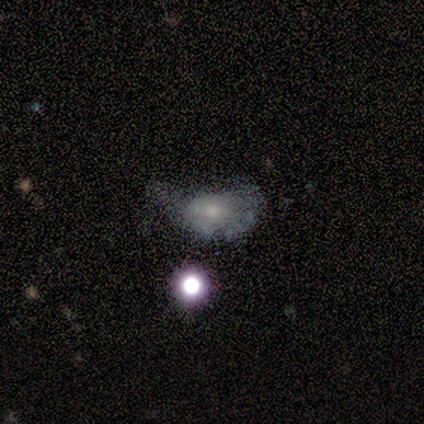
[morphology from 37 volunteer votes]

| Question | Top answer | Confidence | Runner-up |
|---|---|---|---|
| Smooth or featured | featured or disk | 54% | smooth (24%) |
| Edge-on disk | no | 90% | yes (10%) |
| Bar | no | 61% | weak (28%) |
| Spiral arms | yes | 50% | tied: no (50%) |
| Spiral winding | tight | 67% | medium (22%) |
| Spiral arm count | can't tell | 78% | 1 (11%) |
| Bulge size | moderate | 44% | tied: small (44%) |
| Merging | minor disturbance | 41% | none (28%) |